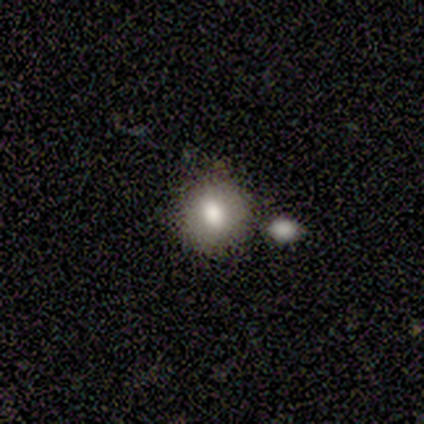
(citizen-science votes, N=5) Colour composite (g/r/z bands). It shows a smooth galaxy with no disk features (80%) that is round (100%). Merging: none (60%).